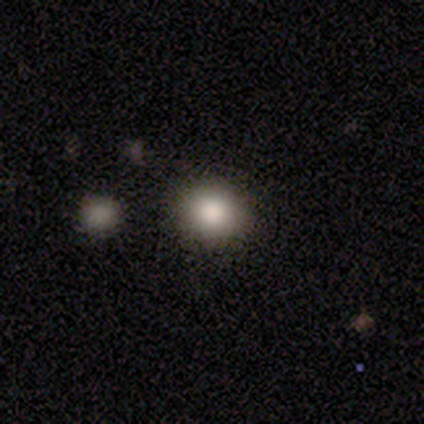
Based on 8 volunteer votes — Smooth or featured?
  - smooth: 88% *
  - star or artifact: 12%
  - featured or disk: 0%
How rounded?
  - round: 71% *
  - in between: 29%
  - cigar-shaped: 0%
Merging?
  - none: 86% *
  - minor disturbance: 14%
  - major disturbance: 0%
  - merger: 0%